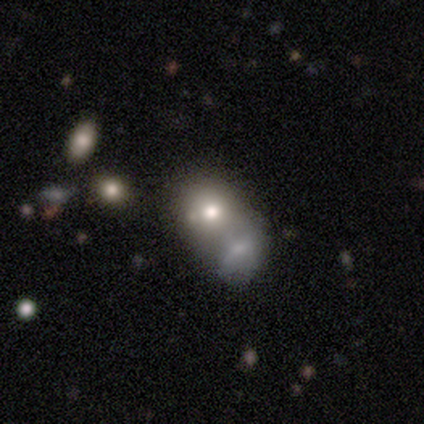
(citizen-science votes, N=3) Volunteers were most divided on "smooth or featured" (3-way tie): smooth: 33%, featured or disk: 33%, star or artifact: 33%; "merging" (2-way tie): none: 50%, minor disturbance: 50%, major disturbance: 0%, merger: 0%. More confident: how rounded — round (100%).